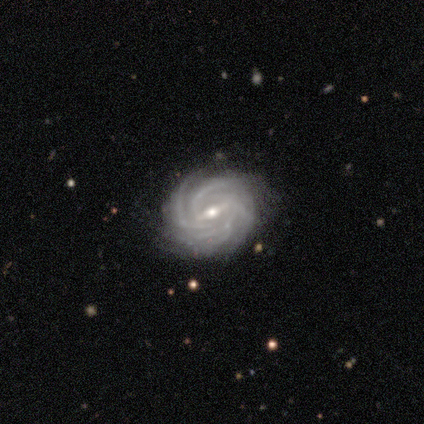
smooth_or_featured: featured or disk (p=0.95) [alt: star or artifact p=0.05]
disk_edge_on: no (p=0.97) [alt: yes p=0.03]
bar: weak (p=0.47) [alt: strong p=0.44]
has_spiral_arms: yes (p=1.00)
spiral_winding: tight (p=0.89) [alt: medium p=0.08]
spiral_arm_count: more than 4 (p=0.42) [alt: 4 p=0.31]
bulge_size: moderate (p=0.47) [tied with: small p=0.47]
merging: none (p=0.86) [alt: minor disturbance p=0.11]